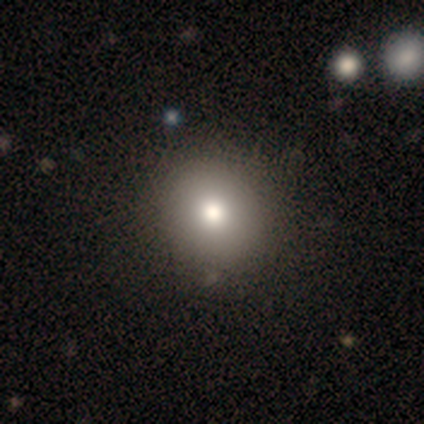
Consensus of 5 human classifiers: Smooth or featured: smooth — 80% (star or artifact — 20%)
How rounded: round — 50% (tied with in between — 50%)
Merging: none — 50% (tied with minor disturbance — 50%)